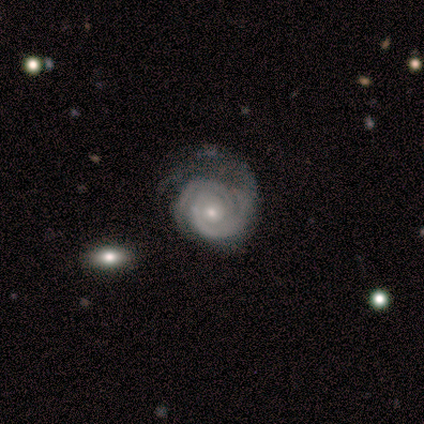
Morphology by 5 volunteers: This is clearly a featured or disk galaxy (80%). It is clearly not viewed edge-on (100%). Bar: likely no (75%). Spiral arm pattern: clearly yes (100%). Spiral arm count: possibly 3 (50%). Spiral winding: possibly tight (50%, tied with medium). Central bulge: likely small (75%). Merging: clearly none (80%).